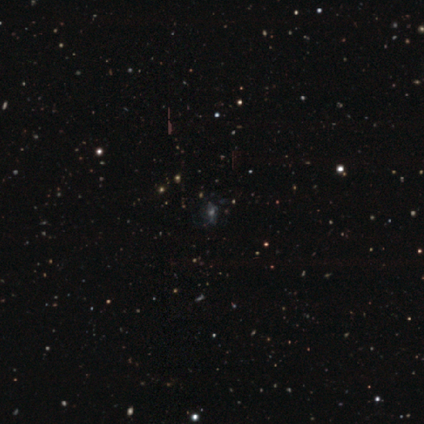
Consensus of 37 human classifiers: This is possibly a star or artifact rather than a galaxy (46%).